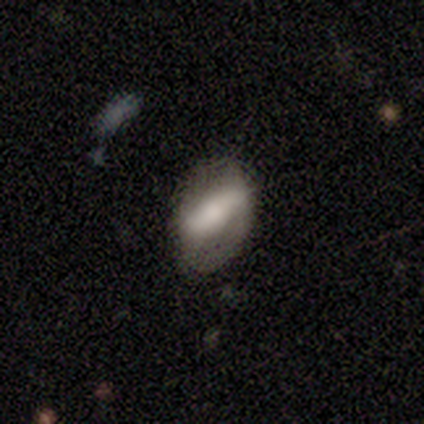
Smooth or featured: featured or disk — 100%
Edge-on disk: no — 100%
Bar: strong — 100%
Spiral arms: no — 67% (yes — 33%)
Bulge size: moderate — 67% (small — 33%)
Merging: minor disturbance — 67% (none — 33%)